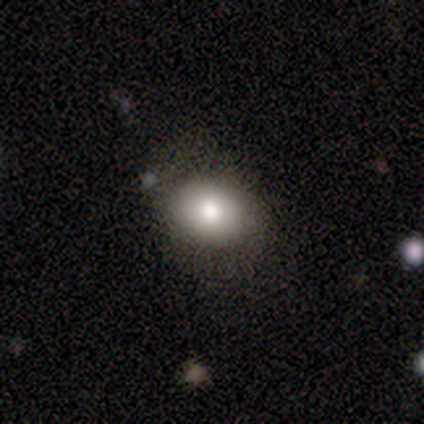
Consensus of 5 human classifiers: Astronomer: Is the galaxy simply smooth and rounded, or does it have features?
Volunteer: smooth — 80%.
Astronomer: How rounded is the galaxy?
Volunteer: round — 50%, tied with in between at 50%.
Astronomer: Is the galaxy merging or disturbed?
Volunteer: minor disturbance — 60% (runner-up: none, 40%).